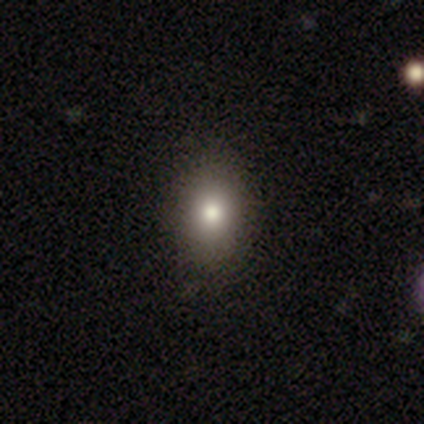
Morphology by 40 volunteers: Q: Smooth or featured?
A: smooth (72%); runner-up: star or artifact (15%)
Q: How rounded?
A: in between (66%); runner-up: round (31%)
Q: Merging?
A: none (71%); runner-up: minor disturbance (3%)